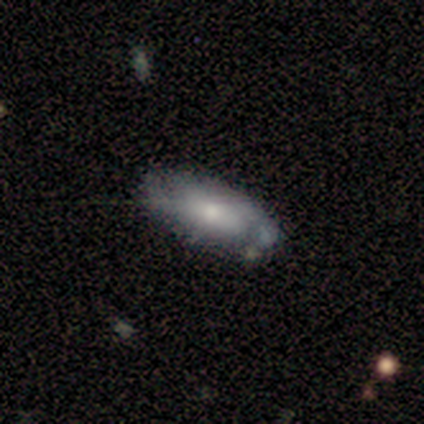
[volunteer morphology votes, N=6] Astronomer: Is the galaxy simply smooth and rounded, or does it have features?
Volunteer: smooth — 50%, tied with featured or disk at 50%.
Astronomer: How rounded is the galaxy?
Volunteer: in between — 67%.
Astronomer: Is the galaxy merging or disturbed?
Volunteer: none — 67%.